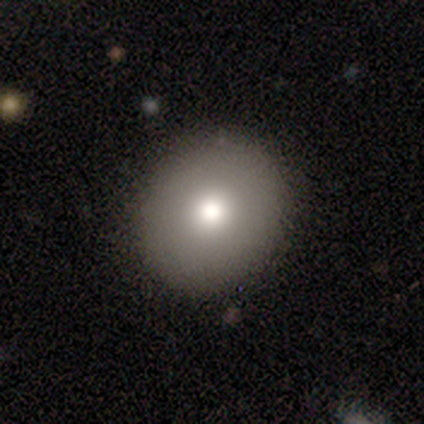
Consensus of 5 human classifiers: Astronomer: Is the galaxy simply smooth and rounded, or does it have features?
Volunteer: featured or disk — 60%.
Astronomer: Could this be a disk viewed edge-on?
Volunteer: no — 100%.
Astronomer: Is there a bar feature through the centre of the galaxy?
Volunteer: no — 100%.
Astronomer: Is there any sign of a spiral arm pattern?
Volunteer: no — 100%.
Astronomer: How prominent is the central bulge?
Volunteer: moderate — 67%.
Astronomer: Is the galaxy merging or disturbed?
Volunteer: none — 100%.